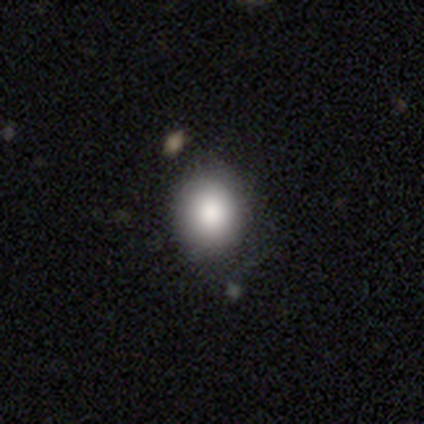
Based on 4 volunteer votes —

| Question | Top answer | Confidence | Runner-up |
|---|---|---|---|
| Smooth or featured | smooth | 100% | — |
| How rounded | round | 75% | in between (25%) |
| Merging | none | 75% | minor disturbance (25%) |